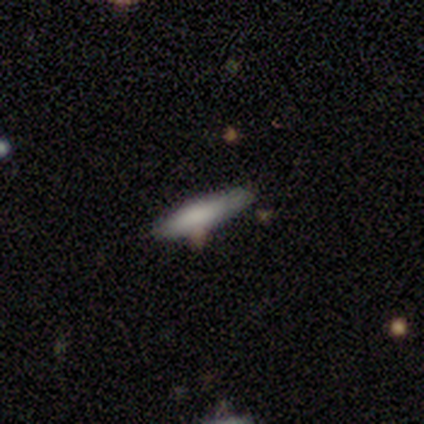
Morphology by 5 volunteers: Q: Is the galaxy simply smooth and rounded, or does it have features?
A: smooth — 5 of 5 (100%).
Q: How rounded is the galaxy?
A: cigar-shaped — 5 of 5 (100%).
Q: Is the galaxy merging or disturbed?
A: none — 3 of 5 (60%).